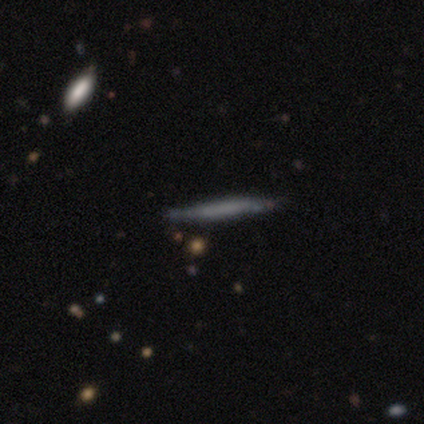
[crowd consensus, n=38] Morphology: type=smooth (66%); roundness=cigar-shaped (100%); merging=none (89%).